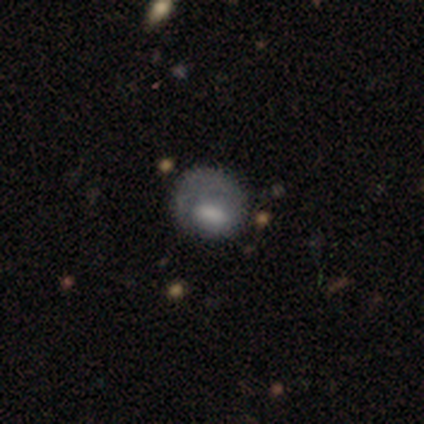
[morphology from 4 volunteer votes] Smooth or featured? smooth (50%, tied with featured or disk)
How rounded? round (50%, tied with in between)
Merging? none (50%, tied with minor disturbance)